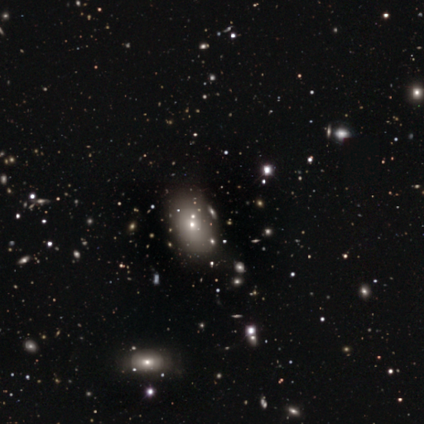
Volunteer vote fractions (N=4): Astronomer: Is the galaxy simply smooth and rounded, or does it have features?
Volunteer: featured or disk — 50%.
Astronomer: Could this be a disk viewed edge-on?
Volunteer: no — 100%.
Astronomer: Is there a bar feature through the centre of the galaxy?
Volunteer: no — 100%.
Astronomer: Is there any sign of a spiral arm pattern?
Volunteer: no — 100%.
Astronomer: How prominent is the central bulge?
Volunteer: small — 100%.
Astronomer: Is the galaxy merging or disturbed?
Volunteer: none — 100%.